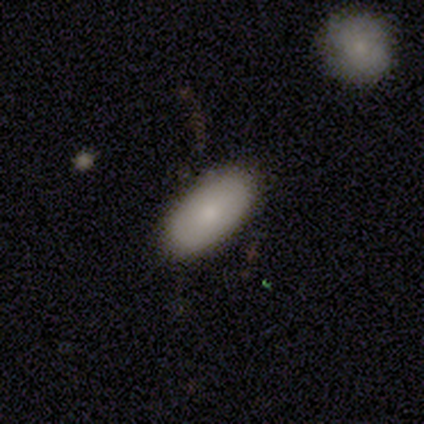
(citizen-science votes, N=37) Smooth or featured? 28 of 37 (76%) said smooth. How rounded? 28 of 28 (100%) said in between. Merging? 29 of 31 (94%) said none.